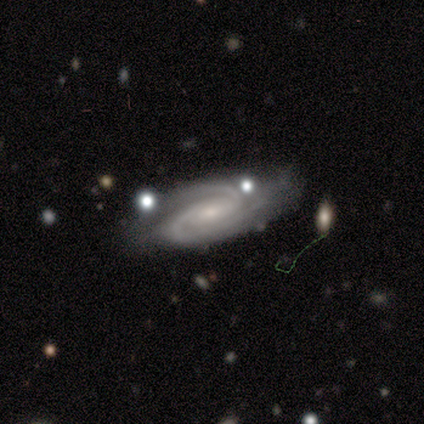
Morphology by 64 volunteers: Smooth or featured?
  - featured or disk: 94% *
  - star or artifact: 6%
  - smooth: 0%
Edge-on disk?
  - no: 92% *
  - yes: 8%
Bar?
  - no: 49% *
  - weak: 38%
  - strong: 13%
Spiral arms?
  - yes: 100% *
  - no: 0%
Spiral winding?
  - tight: 53% *
  - medium: 40%
  - loose: 7%
Spiral arm count?
  - 2: 76% *
  - 3: 20%
  - can't tell: 4%
  - 1: 0%
  - 4: 0%
  - more than 4: 0%
Bulge size?
  - small: 51% *
  - moderate: 36%
  - none: 7%
  - large: 4%
  - dominant: 2%
Merging?
  - none: 65% *
  - minor disturbance: 25%
  - major disturbance: 7%
  - merger: 3%